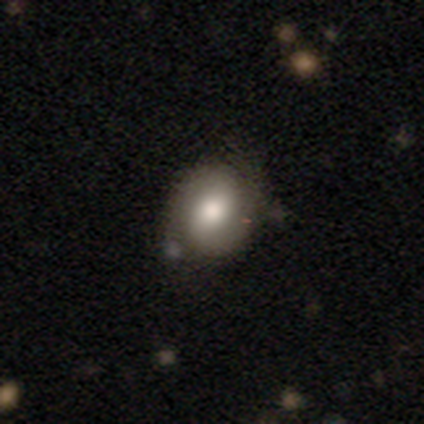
Smooth or featured? 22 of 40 (55%) said smooth. How rounded? 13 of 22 (59%) said round. Merging? 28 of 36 (78%) said none.